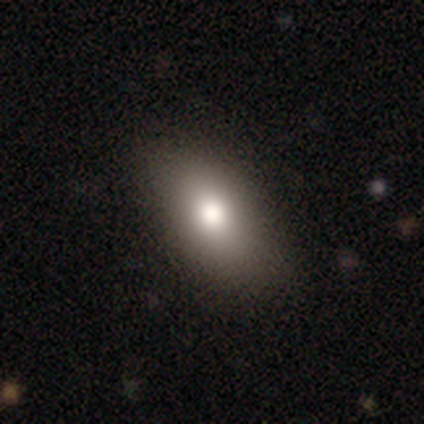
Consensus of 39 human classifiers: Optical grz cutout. It shows a smooth galaxy with no disk features (74%) that is in between round and cigar-shaped (86%). Merging: none (63%).